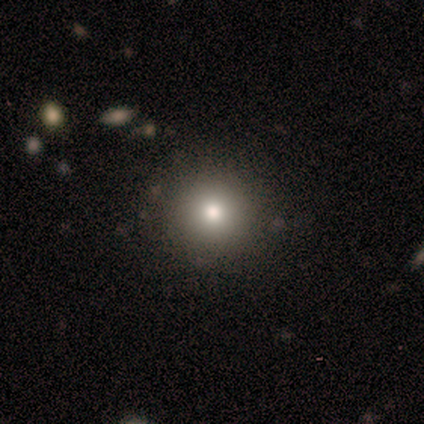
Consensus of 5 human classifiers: Overall: smooth (60%; featured or disk 20%). How rounded: round (100%). Merging: none (75%).